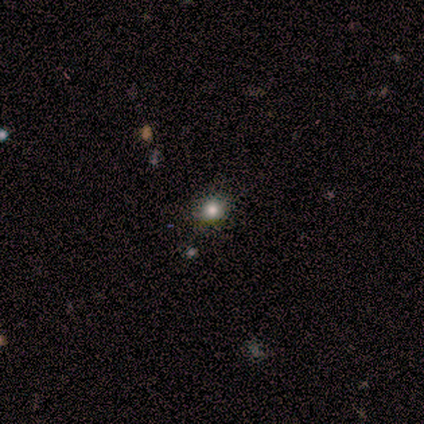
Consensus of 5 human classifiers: smooth_or_featured: smooth (p=0.60) [alt: star or artifact p=0.40]
how_rounded: in between (p=0.67) [alt: round p=0.33]
merging: none (p=0.67) [alt: minor disturbance p=0.33]